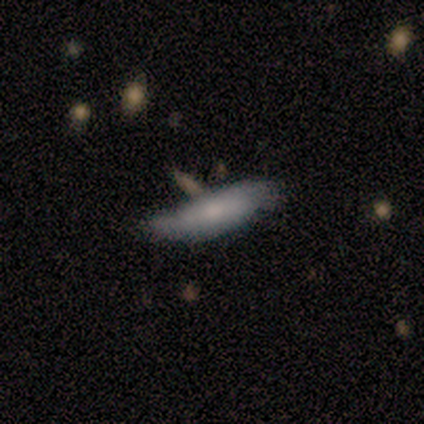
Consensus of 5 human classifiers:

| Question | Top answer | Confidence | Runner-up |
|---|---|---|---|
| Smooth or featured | smooth | 60% | featured or disk (40%) |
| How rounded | cigar-shaped | 67% | in between (33%) |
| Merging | none | 40% | tied: minor disturbance (40%) |